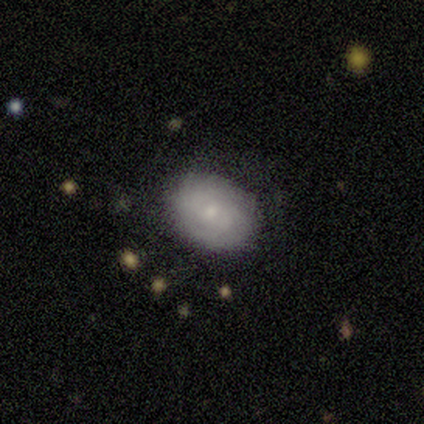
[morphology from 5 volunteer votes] Volunteers were most divided on "spiral arms" (2-way tie): yes: 50%, no: 50%; "merging" (2-way tie): none: 40%, minor disturbance: 40%, merger: 20%, major disturbance: 0%. More confident: edge-on disk — no (100%); spiral winding — tight (100%); spiral arm count — can't tell (100%); smooth or featured — featured or disk (80%); bar — no (75%); bulge size — small (50%).